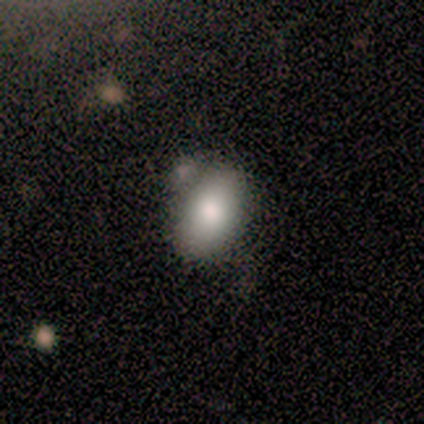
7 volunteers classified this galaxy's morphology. Smooth or featured?
  - smooth: 86% *
  - featured or disk: 14%
  - star or artifact: 0%
How rounded?
  - in between: 100% *
  - round: 0%
  - cigar-shaped: 0%
Merging?
  - none: 71% *
  - minor disturbance: 29%
  - major disturbance: 0%
  - merger: 0%